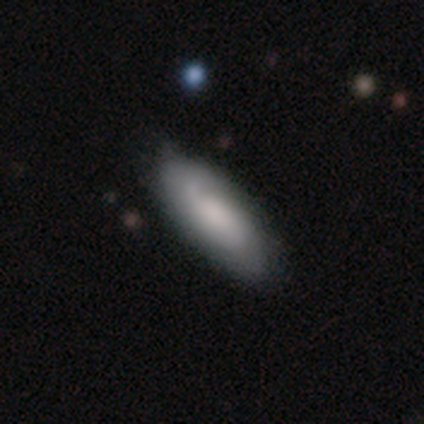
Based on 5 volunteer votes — Volunteers were most divided on "bulge size" (3-way tie): large: 33%, moderate: 33%, none: 33%, dominant: 0%, small: 0%. More confident: edge-on disk — no (100%); bar — no (100%); spiral arms — no (67%); smooth or featured — featured or disk (60%); merging — none (60%).